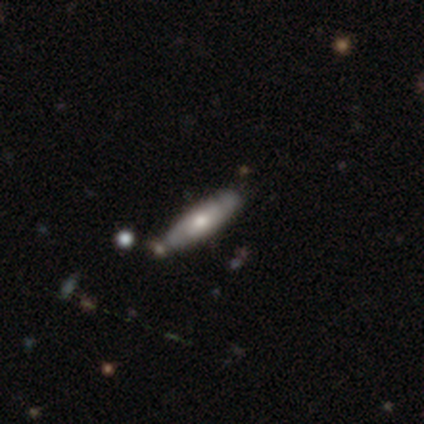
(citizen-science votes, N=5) smooth-or-featured: featured or disk: 100% | smooth: 0% | star or artifact: 0%
  disk-edge-on: yes: 60% | no: 40%
    edge-on-bulge: rounded: 67% | none: 33% | boxy: 0%
  merging: none: 80% | merger: 20% | minor disturbance: 0% | major disturbance: 0%